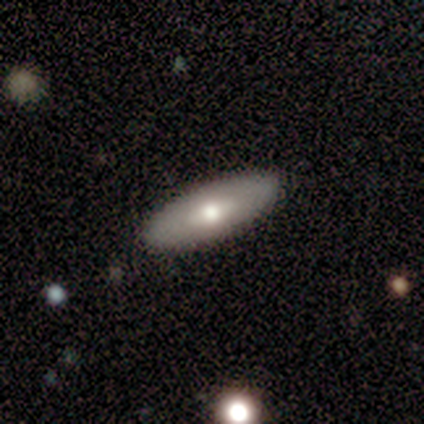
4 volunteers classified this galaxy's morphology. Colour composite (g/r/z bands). It shows a smooth galaxy with no disk features (100%) that is in between round and cigar-shaped (100%). Merging: none (75%).